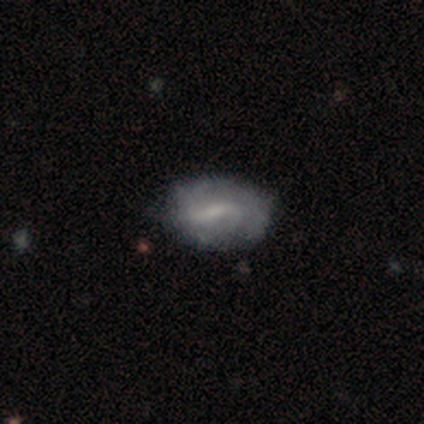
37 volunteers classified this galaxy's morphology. smooth_or_featured: featured or disk (p=0.62) [alt: smooth p=0.27]
disk_edge_on: no (p=0.96) [alt: yes p=0.04]
bar: weak (p=0.73) [alt: strong p=0.23]
has_spiral_arms: yes (p=0.73) [alt: no p=0.27]
spiral_winding: medium (p=0.38) [tied with: loose p=0.38]
spiral_arm_count: can't tell (p=0.44) [alt: 2 p=0.31]
bulge_size: small (p=0.45) [alt: none p=0.32]
merging: none (p=0.73) [alt: minor disturbance p=0.27]